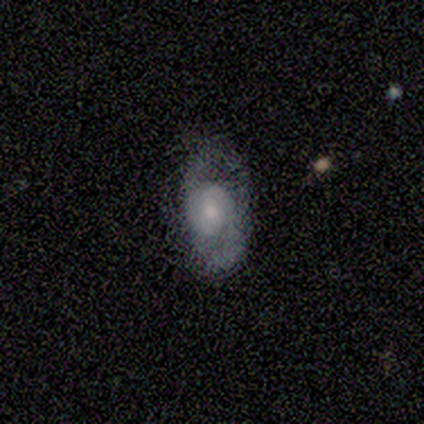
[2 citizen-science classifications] featured or disk 100%, smooth 0%, star or artifact 0%. Down the decision tree: edge-on disk — no (100%); bar — weak (50%, tied with no); spiral arms — yes (100%); spiral arm count — 2 (100%); spiral winding — medium (100%); bulge size — moderate (50%, tied with small); merging — none (100%).